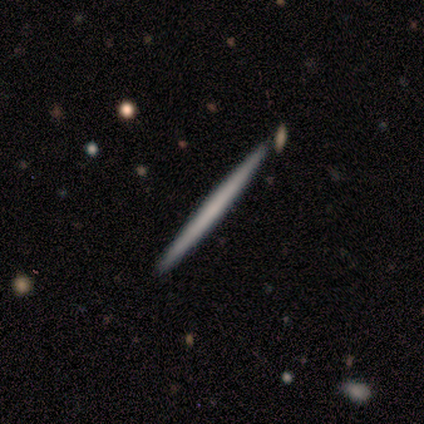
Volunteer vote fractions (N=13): Q: Smooth or featured?
A: featured or disk (54%); runner-up: smooth (46%)
Q: Edge-on disk?
A: yes (100%)
Q: Edge-on bulge?
A: none (86%); runner-up: boxy (14%)
Q: Merging?
A: none (92%); runner-up: minor disturbance (8%)